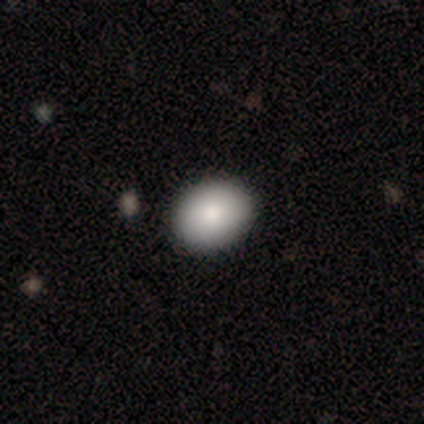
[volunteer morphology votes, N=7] Smooth or featured? 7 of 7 (100%) said smooth. How rounded? 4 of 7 (57%) said round. Merging? 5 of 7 (71%) said none.